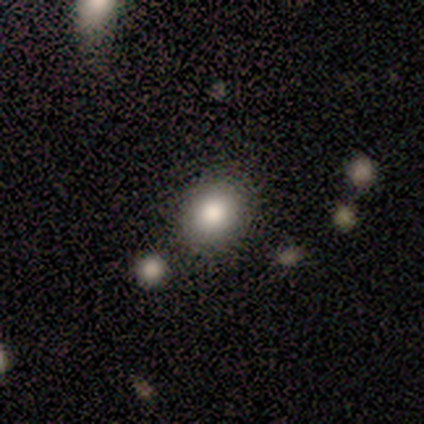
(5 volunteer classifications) A smooth galaxy with no disk features (80%) that is round (100%).

Vote fractions:
- Smooth or featured? smooth: 80% / star or artifact: 20% / featured or disk: 0%
- How rounded? round: 100% / in between: 0% / cigar-shaped: 0%
- Merging? none: 100% / minor disturbance: 0% / major disturbance: 0% / merger: 0%